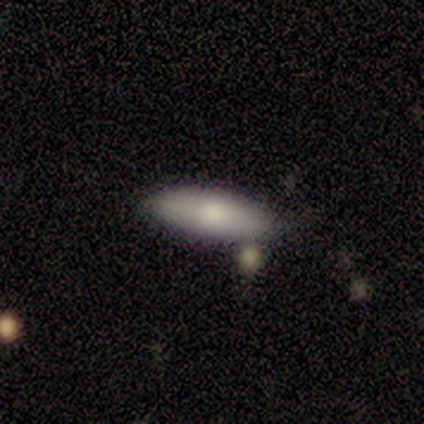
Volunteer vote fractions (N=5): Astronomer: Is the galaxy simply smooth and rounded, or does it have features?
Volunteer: smooth — 100%.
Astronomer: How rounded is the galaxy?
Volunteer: in between — 60%.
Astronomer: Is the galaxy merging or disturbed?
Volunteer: none — 100%.